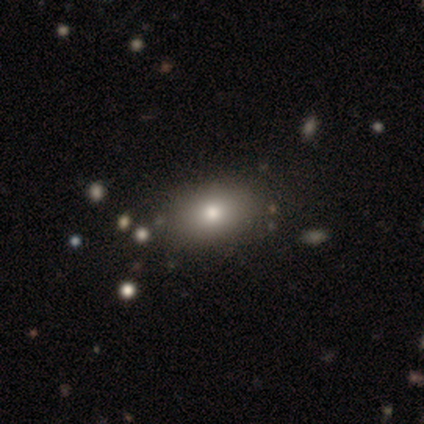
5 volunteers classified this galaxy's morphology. type=smooth (80%); roundness=in between (75%); merging=none (75%).